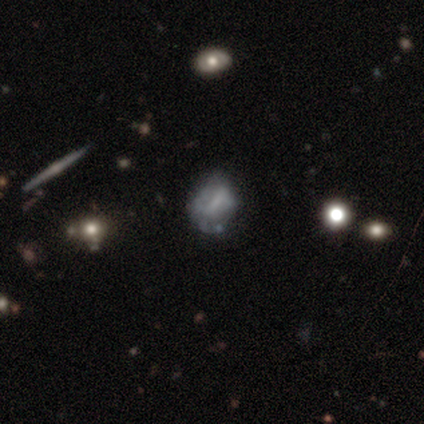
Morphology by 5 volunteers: This appears to be a smooth galaxy with no disk features (100%) that is in between round and cigar-shaped (60%). Merging: minor disturbance (60%).